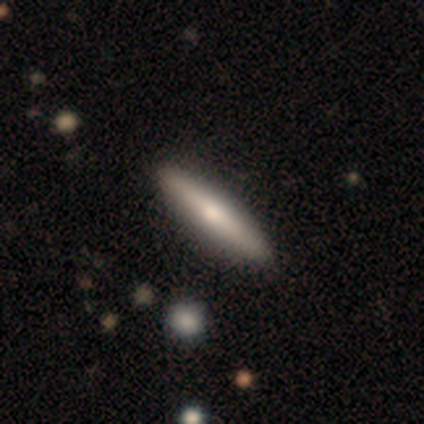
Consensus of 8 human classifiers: Smooth or featured: smooth — 50% (featured or disk — 38%)
How rounded: cigar-shaped — 75% (in between — 25%)
Merging: none — 71% (minor disturbance — 29%)